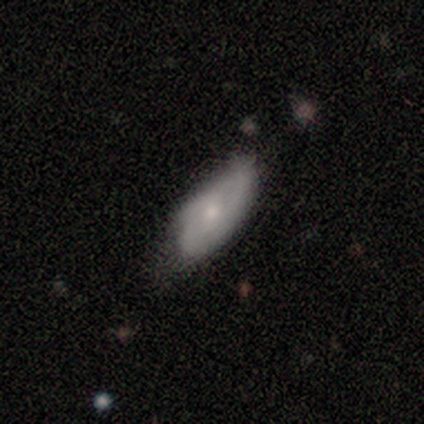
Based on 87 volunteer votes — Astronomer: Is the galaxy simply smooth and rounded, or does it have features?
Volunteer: smooth — 53% (runner-up: featured or disk, 45%).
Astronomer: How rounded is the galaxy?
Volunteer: in between — 78%.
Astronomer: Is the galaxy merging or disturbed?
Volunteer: none — 56% (runner-up: minor disturbance, 38%).